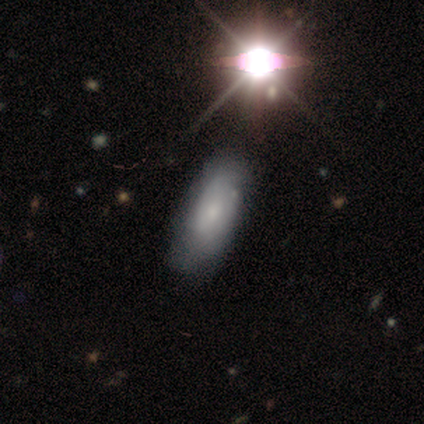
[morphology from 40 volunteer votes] A smooth galaxy with no disk features (42%) that is in between round and cigar-shaped (82%).

Vote fractions:
- Smooth or featured? smooth: 42% / featured or disk: 32% / star or artifact: 25%
- How rounded? in between: 82% / cigar-shaped: 18% / round: 0%
- Merging? none: 63% / minor disturbance: 13% / major disturbance: 0% / merger: 0%